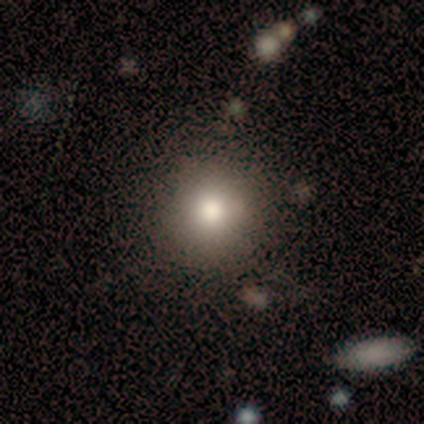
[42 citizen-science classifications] This is likely a smooth galaxy (79%). How rounded: clearly round (100%). Merging: clearly none (97%).